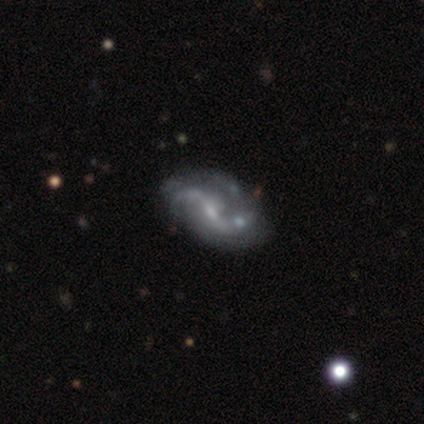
Overall: featured or disk (95%). Edge-on disk: no (97%). Bar: weak (54%; strong 29%). Spiral arms: yes (100%). Spiral arm count: 2 (83%). Spiral winding: loose (77%). Bulge size: small (51%; moderate 34%). Merging: none (38%; minor disturbance 22%).